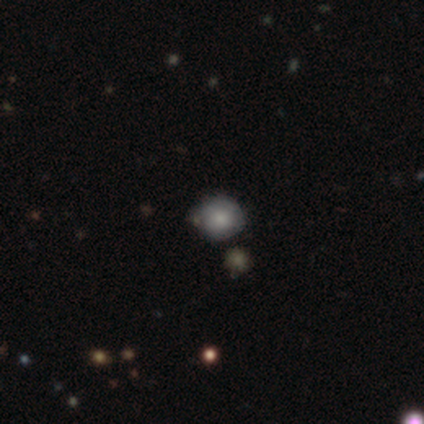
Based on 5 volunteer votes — A smooth galaxy with no disk features (60%) that is round (100%). Merging: none (100%).